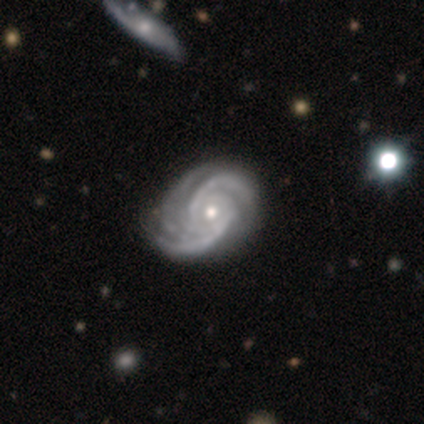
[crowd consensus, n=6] Overall: featured or disk (100%). Edge-on disk: no (100%). Bar: no (50%; strong 33%). Spiral arms: yes (100%). Spiral arm count: 2 (50%; 3 33%). Spiral winding: medium (83%). Bulge size: small (67%; moderate 33%). Merging: none (50%; minor disturbance 33%).